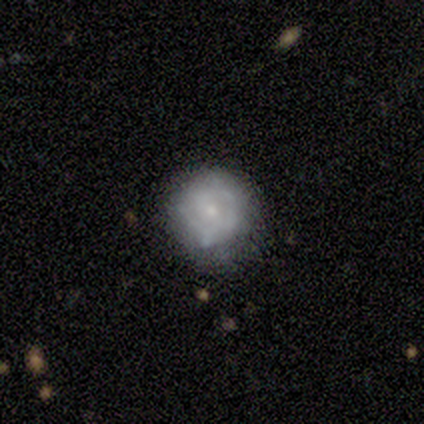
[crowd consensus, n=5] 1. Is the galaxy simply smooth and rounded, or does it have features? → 60% smooth, 20% featured or disk, 20% star or artifact.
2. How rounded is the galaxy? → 67% round, 33% in between, 0% cigar-shaped.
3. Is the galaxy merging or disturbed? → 75% none, 25% minor disturbance, 0% major disturbance, 0% merger.